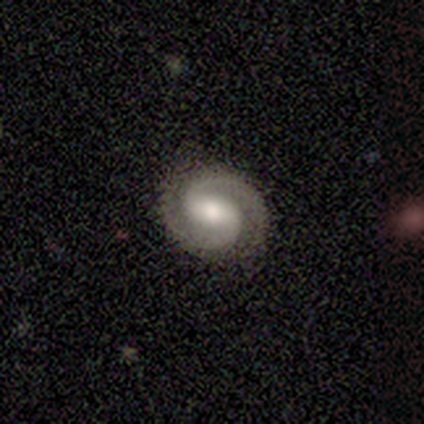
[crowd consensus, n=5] smooth_or_featured: featured or disk (p=1.00)
disk_edge_on: no (p=1.00)
bar: strong (p=0.80) [alt: weak p=0.20]
has_spiral_arms: yes (p=1.00)
spiral_winding: medium (p=0.60) [alt: tight p=0.40]
spiral_arm_count: 2 (p=1.00)
bulge_size: moderate (p=0.60) [alt: large p=0.40]
merging: none (p=1.00)